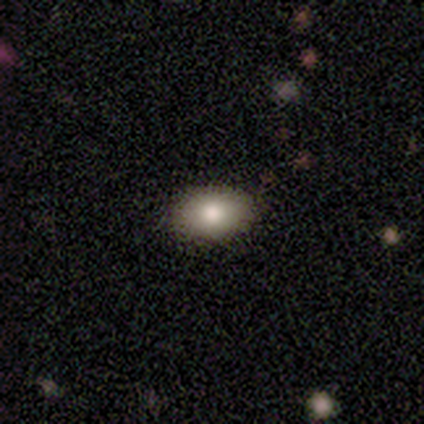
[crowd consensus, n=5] A smooth galaxy with no disk features (80%) that is in between round and cigar-shaped (100%).

Vote fractions:
- Smooth or featured? smooth: 80% / featured or disk: 20% / star or artifact: 0%
- How rounded? in between: 100% / round: 0% / cigar-shaped: 0%
- Merging? none: 80% / minor disturbance: 20% / major disturbance: 0% / merger: 0%